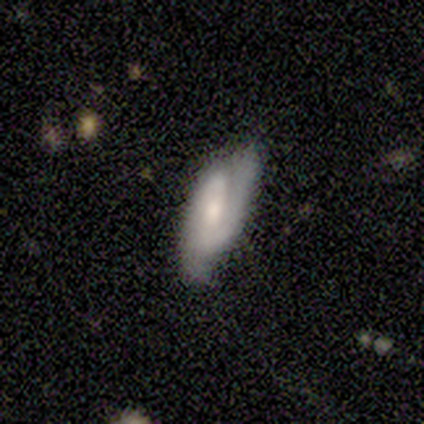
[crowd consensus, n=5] Volunteers were most divided on "smooth or featured": smooth: 60%, featured or disk: 40%, star or artifact: 0%. More confident: how rounded — in between (100%); merging — none (80%).